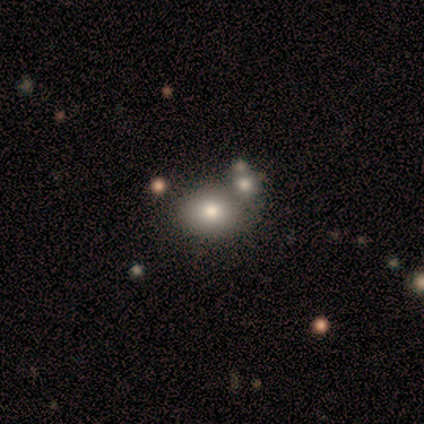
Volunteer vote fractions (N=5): Smooth or featured? smooth (60%)
How rounded? round (67%)
Merging? merger (100%)